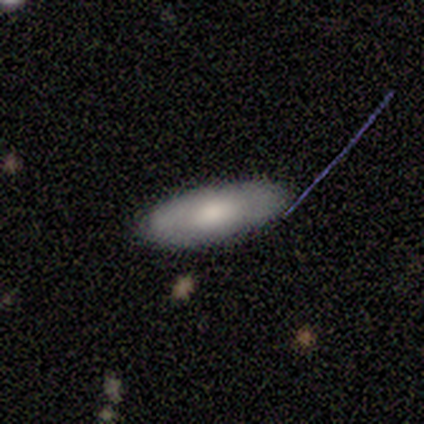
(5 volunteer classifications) A smooth galaxy with no disk features (60%) that is in between round and cigar-shaped (100%).

Vote fractions:
- Smooth or featured? smooth: 60% / featured or disk: 40% / star or artifact: 0%
- How rounded? in between: 100% / round: 0% / cigar-shaped: 0%
- Merging? none: 100% / minor disturbance: 0% / major disturbance: 0% / merger: 0%